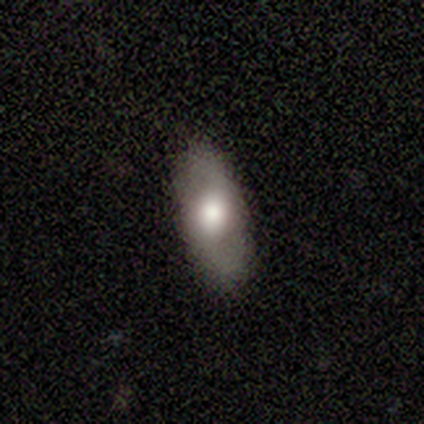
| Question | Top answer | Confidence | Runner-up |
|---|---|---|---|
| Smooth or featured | smooth | 67% | featured or disk (33%) |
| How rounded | in between | 100% | — |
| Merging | none | 83% | minor disturbance (17%) |